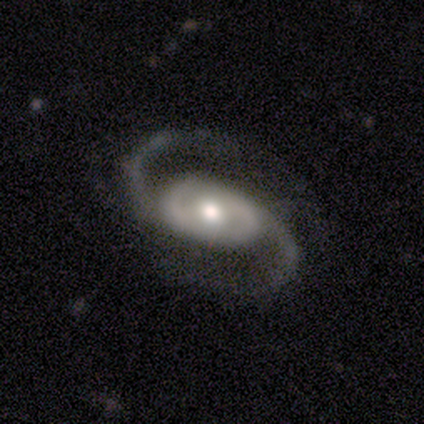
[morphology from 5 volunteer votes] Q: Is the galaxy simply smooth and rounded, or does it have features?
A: featured or disk — 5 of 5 (100%).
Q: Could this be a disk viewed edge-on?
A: no — 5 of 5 (100%).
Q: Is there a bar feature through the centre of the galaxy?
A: no — 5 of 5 (100%).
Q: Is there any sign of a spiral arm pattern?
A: yes — 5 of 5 (100%).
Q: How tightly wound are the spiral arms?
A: loose — 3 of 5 (60%).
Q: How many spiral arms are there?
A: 2 — 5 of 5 (100%).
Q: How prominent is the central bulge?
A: moderate — 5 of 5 (100%).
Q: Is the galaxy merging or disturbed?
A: none — 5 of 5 (100%).